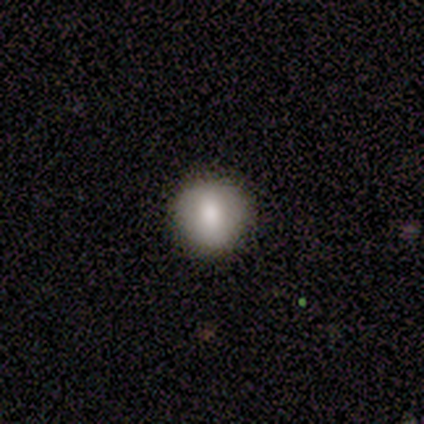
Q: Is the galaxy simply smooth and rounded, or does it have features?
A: smooth — 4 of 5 (80%).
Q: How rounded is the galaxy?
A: round — 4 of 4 (100%).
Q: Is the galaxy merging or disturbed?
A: none — 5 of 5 (100%).